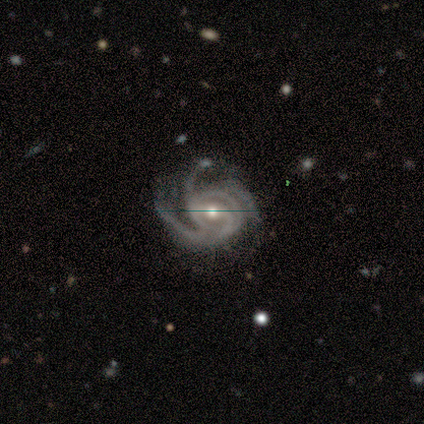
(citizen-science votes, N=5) featured or disk 100%, smooth 0%, star or artifact 0%. Down the decision tree: edge-on disk — no (100%); bar — weak (80%); spiral arms — yes (100%); spiral arm count — 3 (60%); spiral winding — medium (80%); bulge size — small (60%); merging — minor disturbance (60%).